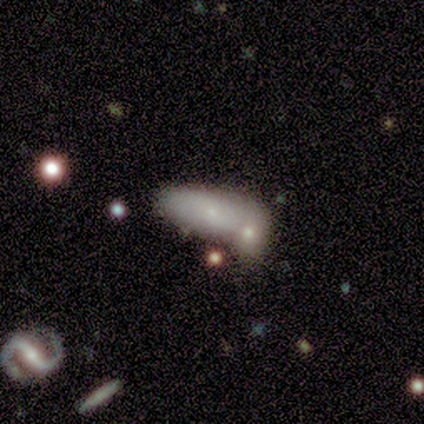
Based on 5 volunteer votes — smooth 100%, featured or disk 0%, star or artifact 0%. Down the decision tree: how rounded — in between (100%); merging — none (60%).